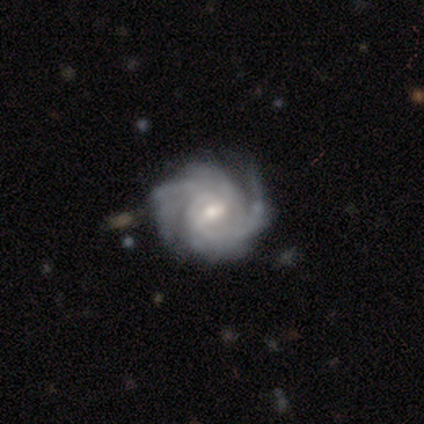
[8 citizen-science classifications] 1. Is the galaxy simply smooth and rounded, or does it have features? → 88% featured or disk, 12% smooth, 0% star or artifact.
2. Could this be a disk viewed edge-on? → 100% no, 0% yes.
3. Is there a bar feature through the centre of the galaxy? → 57% weak, 29% no, 14% strong.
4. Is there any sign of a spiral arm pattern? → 100% yes, 0% no.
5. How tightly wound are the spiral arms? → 57% tight, 29% medium, 14% loose.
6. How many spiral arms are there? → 43% 4, 29% 2, 29% 3, 0% 1, 0% more than 4, 0% can't tell.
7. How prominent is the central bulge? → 57% small, 43% moderate, 0% dominant, 0% large, 0% none.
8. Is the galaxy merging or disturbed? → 62% none, 25% minor disturbance, 12% major disturbance, 0% merger.